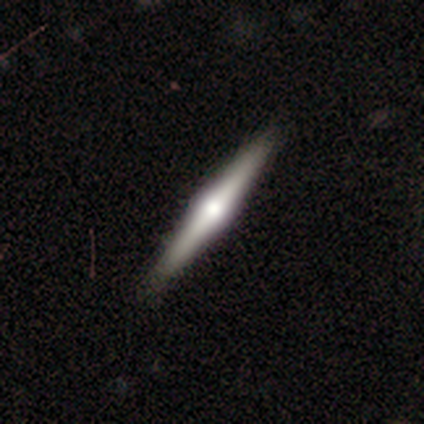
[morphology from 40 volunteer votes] A featured or disk galaxy (90%) viewed edge-on (100%) with a rounded central bulge (92%).

Vote fractions:
- Smooth or featured? featured or disk: 90% / smooth: 10% / star or artifact: 0%
- Edge-on disk? yes: 100% / no: 0%
- Edge-on bulge? rounded: 92% / boxy: 6% / none: 3%
- Merging? none: 65% / minor disturbance: 10% / major disturbance: 0% / merger: 0%